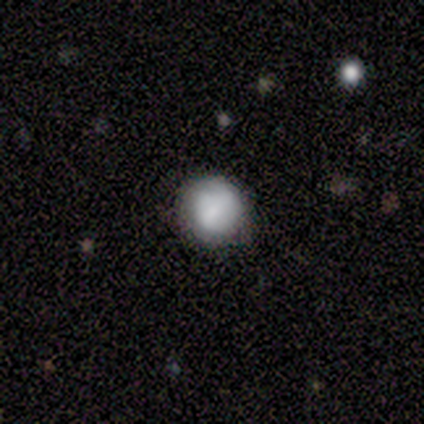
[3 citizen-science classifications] smooth-or-featured: smooth: 100% | featured or disk: 0% | star or artifact: 0%
  how-rounded: round: 100% | in between: 0% | cigar-shaped: 0%
  merging: none: 67% | minor disturbance: 33% | major disturbance: 0% | merger: 0%